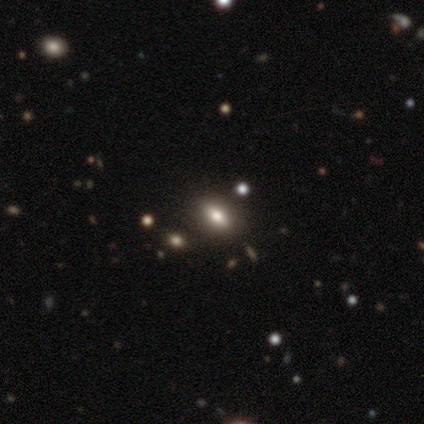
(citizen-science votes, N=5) This appears to be a smooth galaxy with no disk features (80%) that is in between round and cigar-shaped (75%). Merging: none (75%).